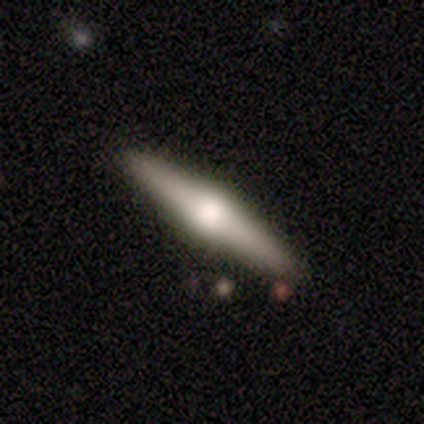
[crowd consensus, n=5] A featured or disk galaxy (80%) viewed edge-on (100%) with a rounded central bulge (100%). Merging: none (100%).